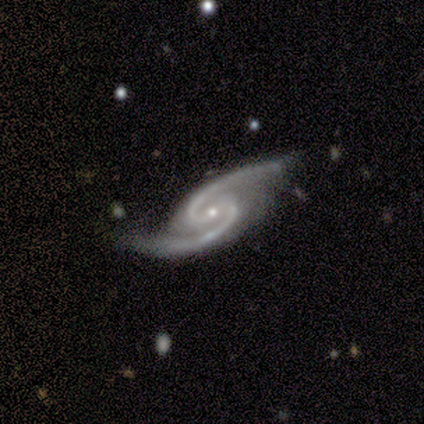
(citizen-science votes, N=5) Smooth or featured? featured or disk (100%)
Edge-on disk? no (100%)
Bar? weak (60%)
Spiral arms? yes (100%)
Spiral winding? medium (80%)
Spiral arm count? 2 (100%)
Bulge size? small (80%)
Merging? none (100%)